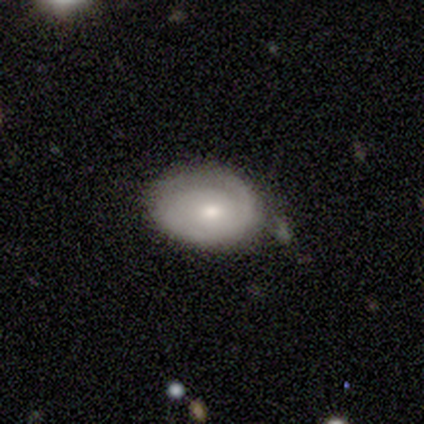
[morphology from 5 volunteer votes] Smooth or featured? smooth (60%)
How rounded? in between (67%)
Merging? none (60%)